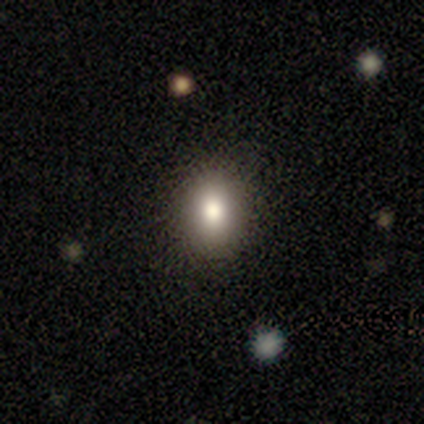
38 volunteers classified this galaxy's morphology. Volunteers were most divided on "how rounded": in between: 72%, round: 28%, cigar-shaped: 0%. More confident: smooth or featured — smooth (84%); merging — none (77%).